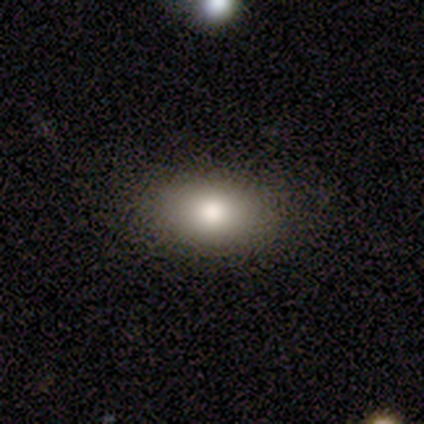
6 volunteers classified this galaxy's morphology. Overall: smooth (100%). How rounded: in between (83%). Merging: none (100%).